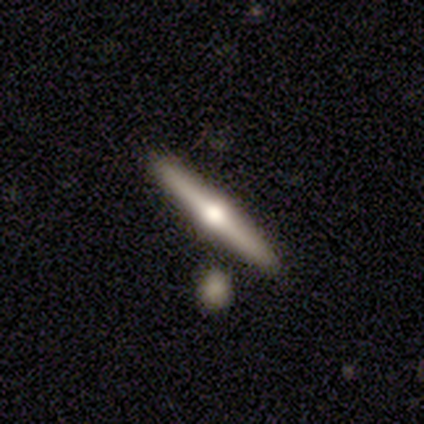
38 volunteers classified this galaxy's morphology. Smooth or featured: featured or disk — 68% (smooth — 21%)
Edge-on disk: yes — 100%
Edge-on bulge: rounded — 100%
Merging: none — 94% (minor disturbance — 3%)